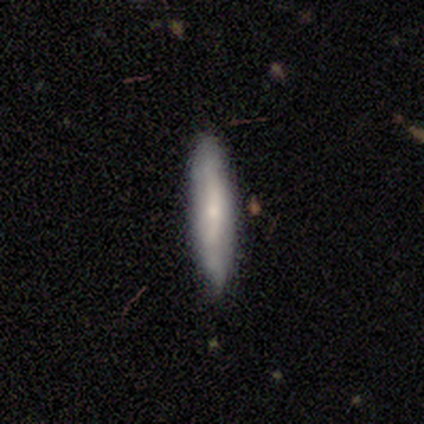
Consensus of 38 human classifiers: smooth-or-featured: smooth: 55% | featured or disk: 39% | star or artifact: 5%
  how-rounded: cigar-shaped: 90% | in between: 10% | round: 0%
  merging: none: 81% | minor disturbance: 14% | merger: 6% | major disturbance: 0%